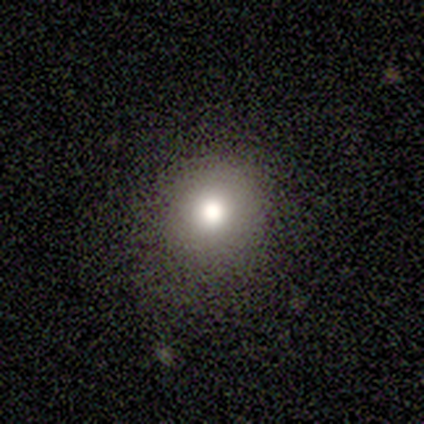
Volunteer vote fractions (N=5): Morphology: type=smooth (80%); roundness=round (75%); merging=none (60%).